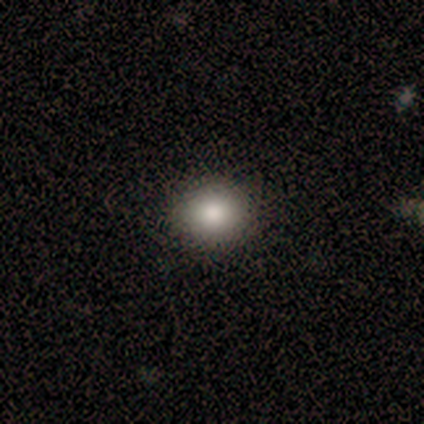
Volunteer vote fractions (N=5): smooth-or-featured: smooth: 100% | featured or disk: 0% | star or artifact: 0%
  how-rounded: round: 80% | in between: 20% | cigar-shaped: 0%
  merging: none: 80% | minor disturbance: 20% | major disturbance: 0% | merger: 0%